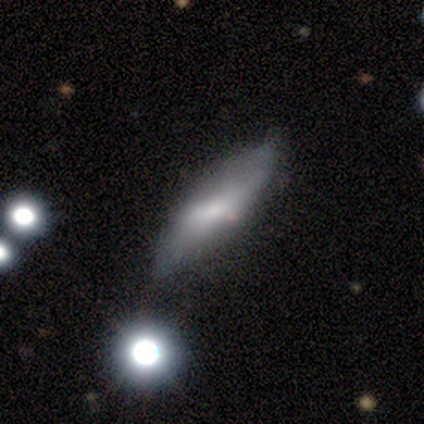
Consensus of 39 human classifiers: Morphology: type=smooth (51%); roundness=in between (60%); merging=none (64%).